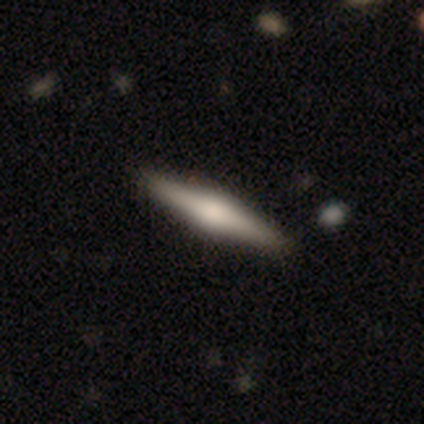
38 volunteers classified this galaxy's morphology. A featured or disk galaxy (53%) viewed edge-on (100%) with a rounded central bulge (80%). Merging: none (60%).